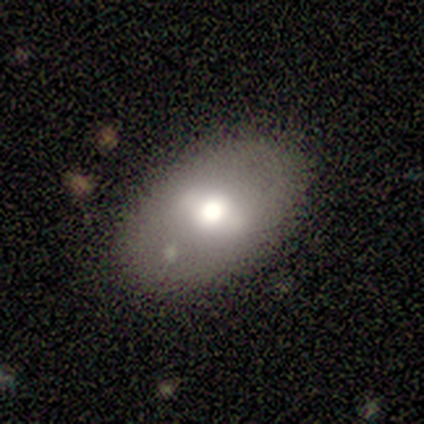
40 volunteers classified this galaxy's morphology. Overall: smooth (60%; featured or disk 32%). How rounded: in between (71%). Merging: none (76%).